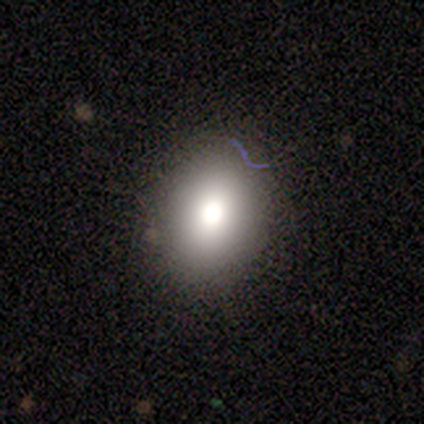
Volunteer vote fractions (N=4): Morphology: type=smooth (100%); roundness=round (50%, tied with in between); merging=none (100%).